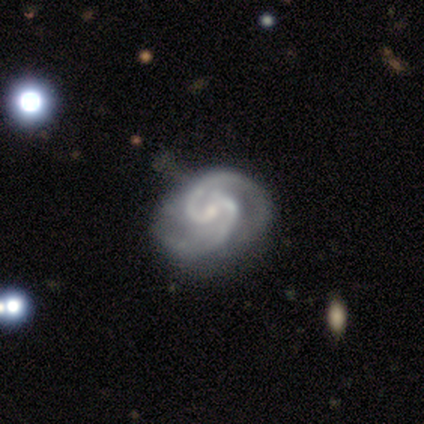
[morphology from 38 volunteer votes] A featured or disk galaxy (97%) with a weak bar (41%), 2 (89%) medium (57%) spiral arms (100%) and a small central bulge (76%).

Vote fractions:
- Smooth or featured? featured or disk: 97% / smooth: 3% / star or artifact: 0%
- Edge-on disk? no: 100% / yes: 0%
- Bar? weak: 41% / no: 38% / strong: 22%
- Spiral arms? yes: 100% / no: 0%
- Spiral winding? medium: 57% / tight: 35% / loose: 8%
- Spiral arm count? 2: 89% / 3: 5% / 4: 3% / can't tell: 3% / 1: 0% / more than 4: 0%
- Bulge size? small: 76% / none: 11% / moderate: 8% / large: 5% / dominant: 0%
- Merging? none: 55% / minor disturbance: 32% / major disturbance: 11% / merger: 3%